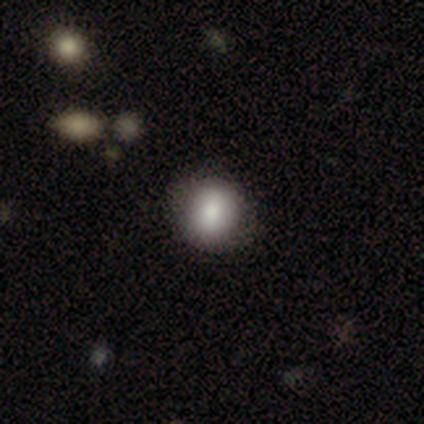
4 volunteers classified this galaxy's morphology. Q: Smooth or featured?
A: smooth (75%); runner-up: featured or disk (25%)
Q: How rounded?
A: round (100%)
Q: Merging?
A: none (100%)